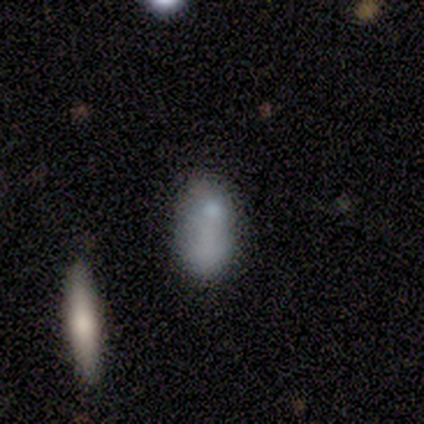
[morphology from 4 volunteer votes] A smooth galaxy with no disk features (75%) that is in between round and cigar-shaped (100%). Merging: none (67%).